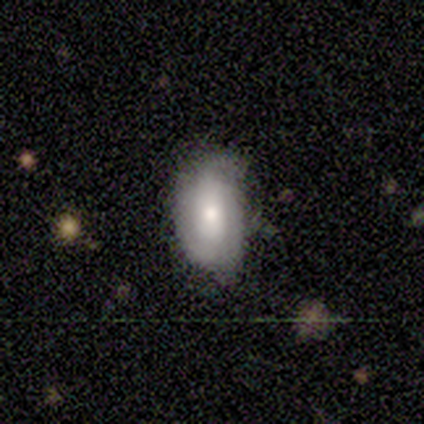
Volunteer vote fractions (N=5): A featured or disk galaxy (60%) with a weak bar (67%), 3 (100%) medium (50%, tied with loose) spiral arms (67%) and a moderate central bulge (67%).

Vote fractions:
- Smooth or featured? featured or disk: 60% / smooth: 40% / star or artifact: 0%
- Edge-on disk? no: 100% / yes: 0%
- Bar? weak: 67% / no: 33% / strong: 0%
- Spiral arms? yes: 67% / no: 33%
- Spiral winding? medium: 50% (tied) / loose: 50% (tied) / tight: 0%
- Spiral arm count? 3: 100% / 1: 0% / 2: 0% / 4: 0% / more than 4: 0% / can't tell: 0%
- Bulge size? moderate: 67% / large: 33% / dominant: 0% / small: 0% / none: 0%
- Merging? none: 80% / minor disturbance: 20% / major disturbance: 0% / merger: 0%